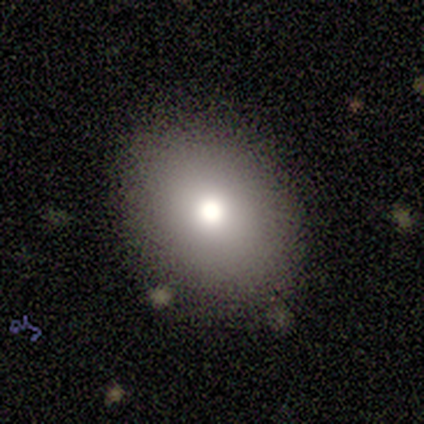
Smooth or featured? smooth (100%)
How rounded? round (57%)
Merging? none (86%)